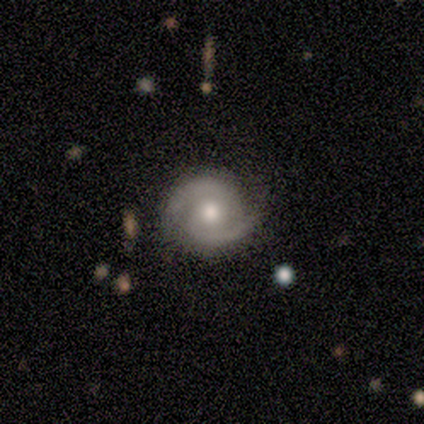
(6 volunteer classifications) smooth_or_featured: featured or disk (p=0.83) [alt: star or artifact p=0.17]
disk_edge_on: no (p=1.00)
bar: no (p=0.60) [alt: strong p=0.20]
has_spiral_arms: yes (p=1.00)
spiral_winding: medium (p=0.60) [alt: tight p=0.20]
spiral_arm_count: 2 (p=1.00)
bulge_size: moderate (p=0.40) [tied with: small p=0.40]
merging: none (p=0.60) [alt: minor disturbance p=0.20]